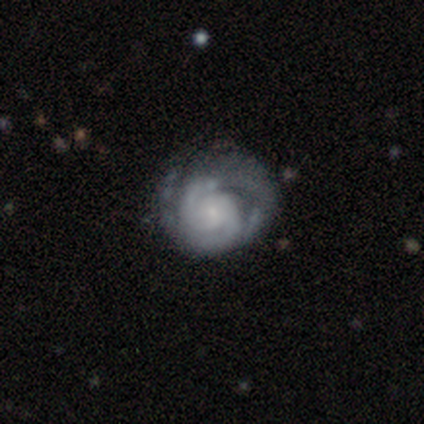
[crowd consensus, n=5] Volunteers were most divided on "merging" (2-way tie): none: 40%, major disturbance: 40%, minor disturbance: 20%, merger: 0%. More confident: smooth or featured — featured or disk (100%); edge-on disk — no (100%); spiral arms — yes (100%); bar — no (80%); spiral winding — medium (60%); bulge size — small (60%); spiral arm count — 2 (60%).